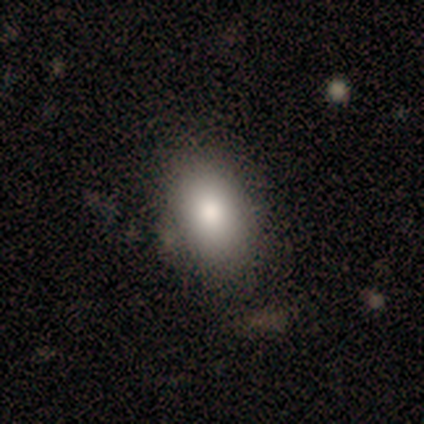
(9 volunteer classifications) Smooth or featured? 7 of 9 (78%) said smooth. How rounded? 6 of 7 (86%) said in between. Merging? 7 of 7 (100%) said none.